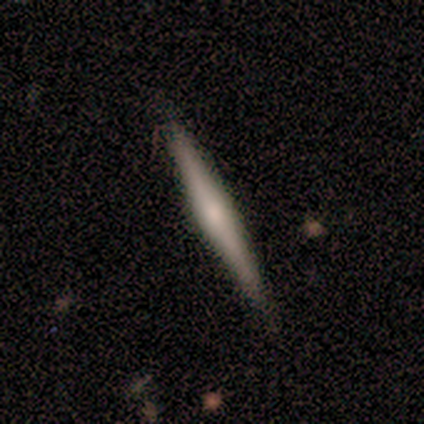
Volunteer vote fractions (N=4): Q: Smooth or featured?
A: smooth (50%); tied with: featured or disk (50%)
Q: How rounded?
A: cigar-shaped (100%)
Q: Merging?
A: none (100%)